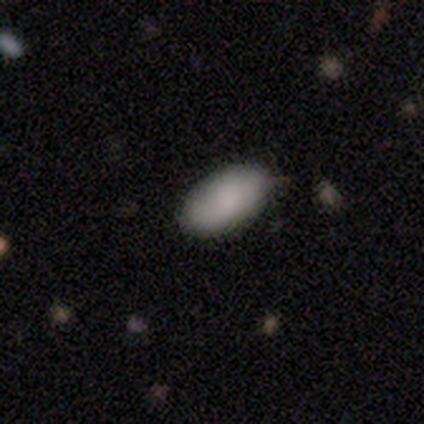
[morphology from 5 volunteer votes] smooth-or-featured: smooth: 100% | featured or disk: 0% | star or artifact: 0%
  how-rounded: in between: 100% | round: 0% | cigar-shaped: 0%
  merging: none: 80% | minor disturbance: 20% | major disturbance: 0% | merger: 0%